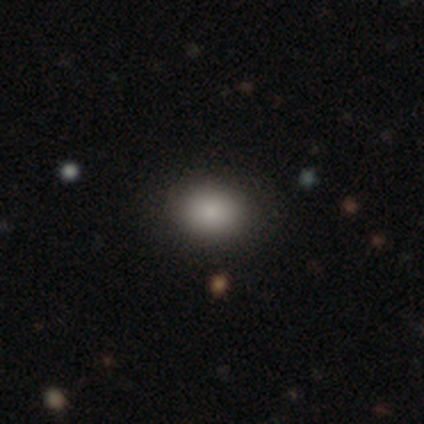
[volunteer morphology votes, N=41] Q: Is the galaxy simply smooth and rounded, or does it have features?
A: smooth — 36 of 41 (88%).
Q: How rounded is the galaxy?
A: in between — 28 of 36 (78%).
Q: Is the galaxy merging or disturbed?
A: none — 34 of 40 (85%).